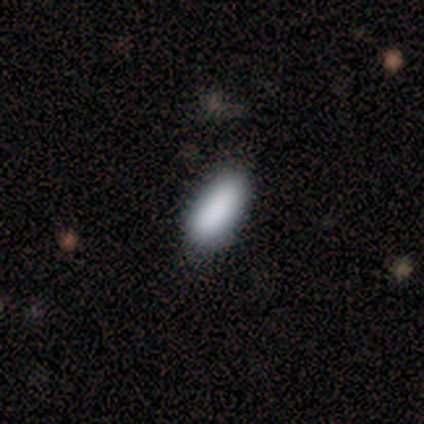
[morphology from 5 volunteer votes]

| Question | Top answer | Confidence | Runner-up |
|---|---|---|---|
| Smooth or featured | smooth | 100% | — |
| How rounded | in between | 100% | — |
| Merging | none | 80% | major disturbance (20%) |